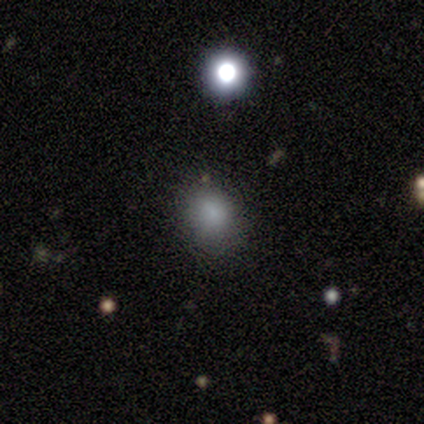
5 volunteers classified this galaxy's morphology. smooth 60%, star or artifact 40%, featured or disk 0%. Down the decision tree: how rounded — in between (100%); merging — none (67%).